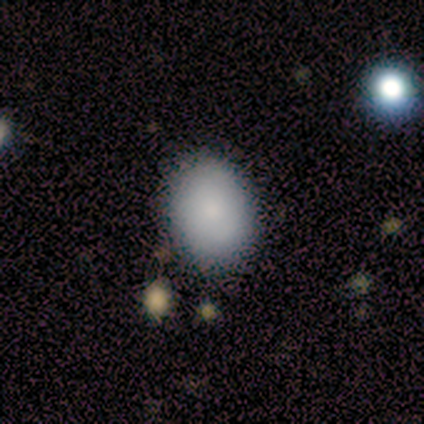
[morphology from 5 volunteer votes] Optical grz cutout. It shows a smooth galaxy with no disk features (100%) that is in between round and cigar-shaped (100%). Merging: none (100%).